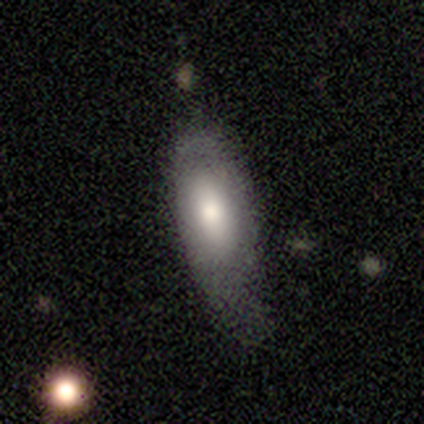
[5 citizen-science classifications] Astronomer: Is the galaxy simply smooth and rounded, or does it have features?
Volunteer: smooth — 60%.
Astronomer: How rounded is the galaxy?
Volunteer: round — 33%, tied with in between and cigar-shaped at 33%.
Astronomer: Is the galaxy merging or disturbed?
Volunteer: none — 50%.